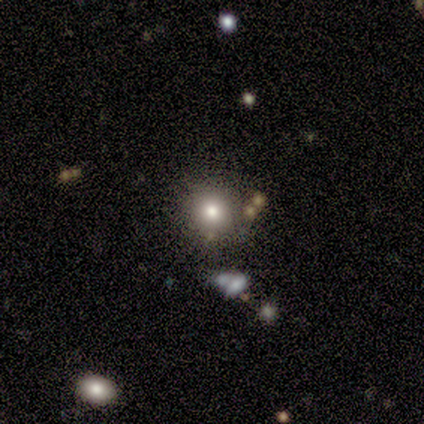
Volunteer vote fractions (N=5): Q: Smooth or featured?
A: smooth (80%); runner-up: star or artifact (20%)
Q: How rounded?
A: round (100%)
Q: Merging?
A: none (100%)